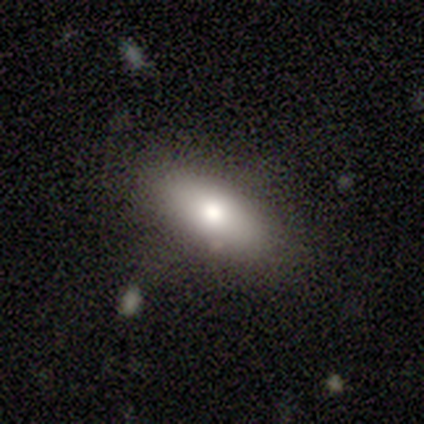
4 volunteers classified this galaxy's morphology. Volunteers were most divided on "how rounded" (2-way tie): in between: 50%, cigar-shaped: 50%, round: 0%; "merging" (2-way tie): none: 50%, minor disturbance: 50%, major disturbance: 0%, merger: 0%. More confident: smooth or featured — smooth (100%).